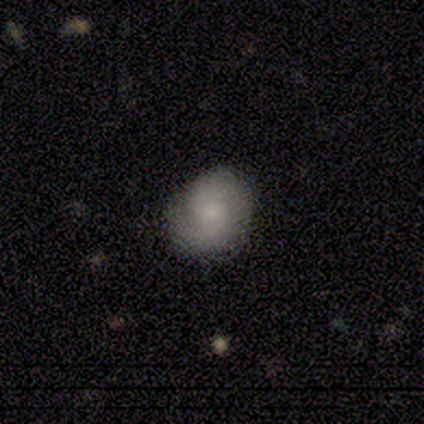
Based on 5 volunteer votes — smooth_or_featured: smooth (p=0.60) [alt: featured or disk p=0.40]
how_rounded: in between (p=0.67) [alt: round p=0.33]
merging: major disturbance (p=0.60) [alt: none p=0.40]